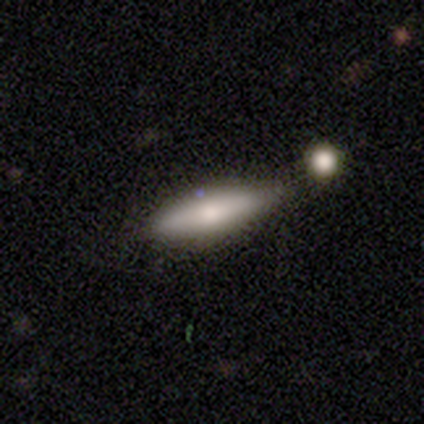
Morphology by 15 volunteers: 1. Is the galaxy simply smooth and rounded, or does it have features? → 67% smooth, 27% featured or disk, 7% star or artifact.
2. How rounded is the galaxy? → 70% cigar-shaped, 30% in between, 0% round.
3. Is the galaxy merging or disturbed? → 64% none, 29% minor disturbance, 7% merger, 0% major disturbance.